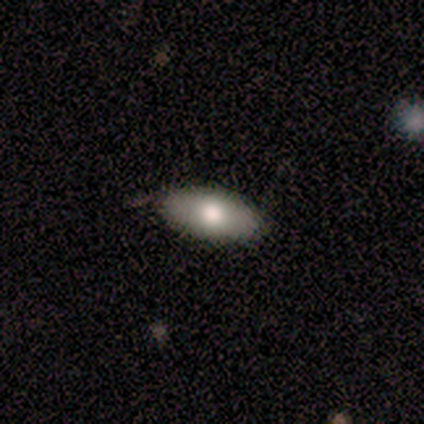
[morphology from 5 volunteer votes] smooth 40% (tied), star or artifact 40% (tied), featured or disk 20%. Down the decision tree: how rounded — in between (100%); merging — none (67%).